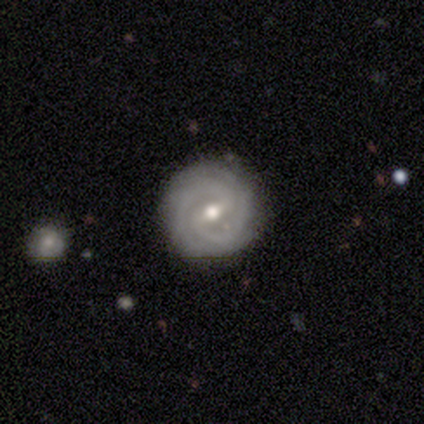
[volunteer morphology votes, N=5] Smooth or featured? 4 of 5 (80%) said featured or disk. Edge-on disk? 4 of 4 (100%) said no. Bar? 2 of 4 (50%) said weak. Spiral arms? 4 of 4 (100%) said yes. Spiral winding? 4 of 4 (100%) said tight. Spiral arm count? 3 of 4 (75%) said 2. Bulge size? 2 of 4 (50%) said small. Merging? 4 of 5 (80%) said none.